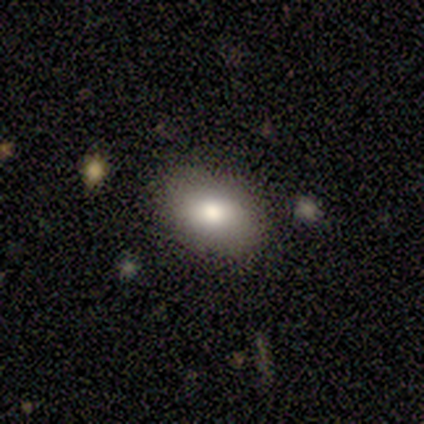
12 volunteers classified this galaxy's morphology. smooth_or_featured: smooth (p=1.00)
how_rounded: in between (p=0.92) [alt: round p=0.08]
merging: none (p=0.92) [alt: minor disturbance p=0.08]